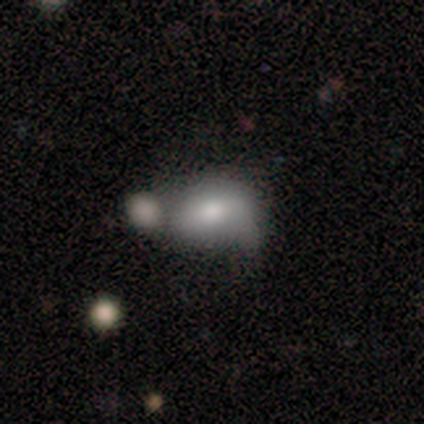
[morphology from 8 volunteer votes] type=smooth (62%); roundness=in between (100%); merging=merger (57%).